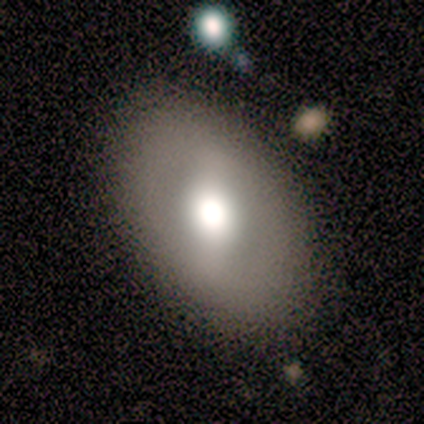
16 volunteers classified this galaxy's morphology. A smooth galaxy with no disk features (56%) that is in between round and cigar-shaped (89%).

Vote fractions:
- Smooth or featured? smooth: 56% / featured or disk: 25% / star or artifact: 19%
- How rounded? in between: 89% / round: 11% / cigar-shaped: 0%
- Merging? none: 69% / minor disturbance: 0% / major disturbance: 0% / merger: 0%